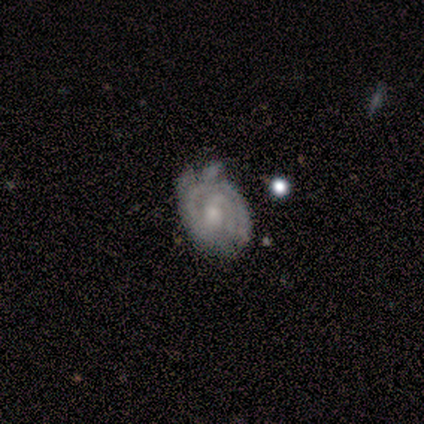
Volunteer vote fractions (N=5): Smooth or featured? 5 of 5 (100%) said featured or disk. Edge-on disk? 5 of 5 (100%) said no. Bar? 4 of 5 (80%) said weak. Spiral arms? 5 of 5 (100%) said yes. Spiral winding? 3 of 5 (60%) said tight. Spiral arm count? 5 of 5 (100%) said 2. Bulge size? 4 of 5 (80%) said small. Merging? 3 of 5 (60%) said none.